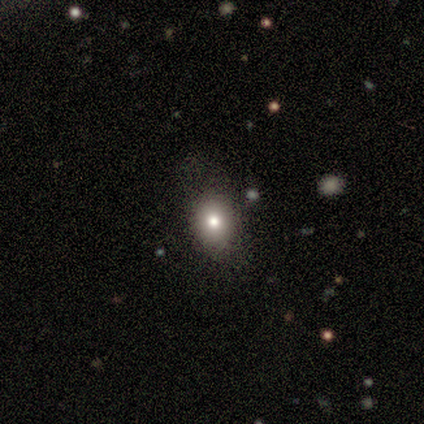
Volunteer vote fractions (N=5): This is clearly a smooth galaxy (80%). How rounded: likely in between (75%). Merging: likely none (75%).